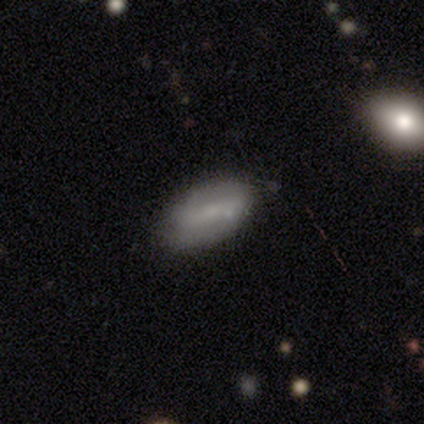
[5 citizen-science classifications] A smooth galaxy with no disk features (60%) that is in between round and cigar-shaped (100%). Merging: none (100%).